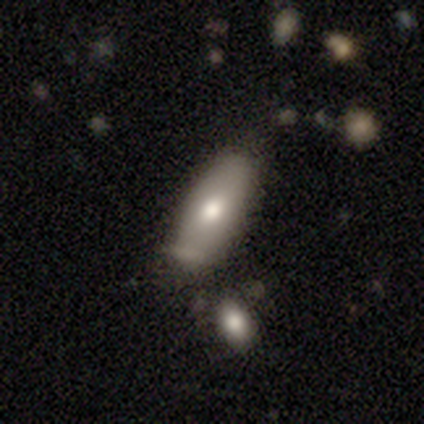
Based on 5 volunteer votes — A smooth galaxy with no disk features (80%) that is in between round and cigar-shaped (100%). Merging: none (75%).